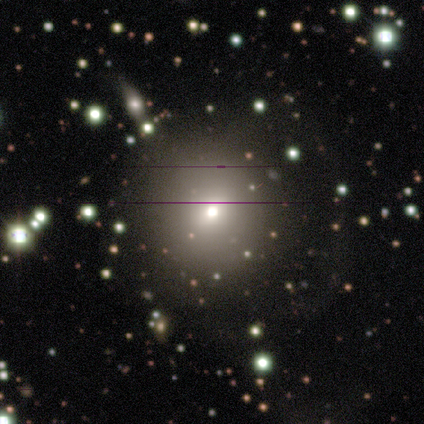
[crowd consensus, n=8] This appears to be a smooth galaxy with no disk features (38%, tied with featured or disk) that is round (100%). Merging: none (67%).